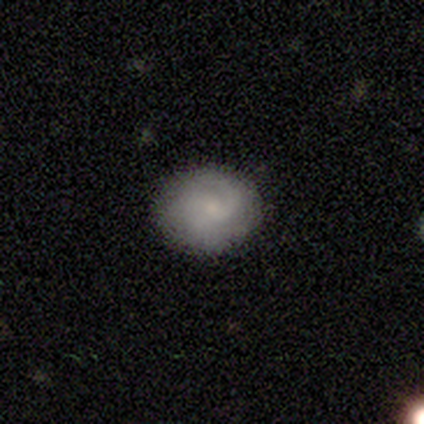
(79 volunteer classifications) Smooth or featured: featured or disk — 54% (smooth — 44%)
Edge-on disk: no — 98% (yes — 2%)
Bar: no — 86% (weak — 14%)
Spiral arms: yes — 93% (no — 7%)
Spiral winding: medium — 49% (tight — 38%)
Spiral arm count: 2 — 41% (1 — 31%)
Bulge size: small — 76% (moderate — 10%)
Merging: none — 60% (minor disturbance — 13%)